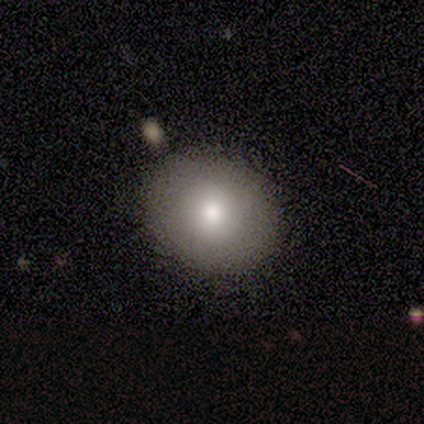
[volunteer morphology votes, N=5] A smooth galaxy with no disk features (80%) that is round (100%).

Vote fractions:
- Smooth or featured? smooth: 80% / star or artifact: 20% / featured or disk: 0%
- How rounded? round: 100% / in between: 0% / cigar-shaped: 0%
- Merging? none: 100% / minor disturbance: 0% / major disturbance: 0% / merger: 0%